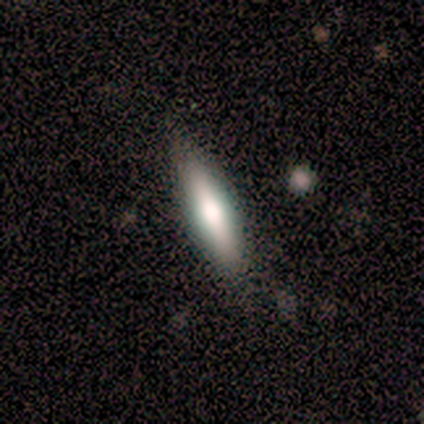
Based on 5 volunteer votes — Q: Smooth or featured?
A: smooth (80%); runner-up: featured or disk (20%)
Q: How rounded?
A: cigar-shaped (75%); runner-up: round (25%)
Q: Merging?
A: none (80%); runner-up: minor disturbance (20%)